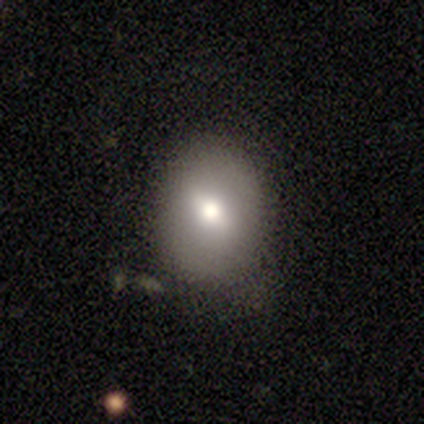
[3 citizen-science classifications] Smooth or featured? smooth (67%)
How rounded? in between (50%, tied with cigar-shaped)
Merging? none (100%)